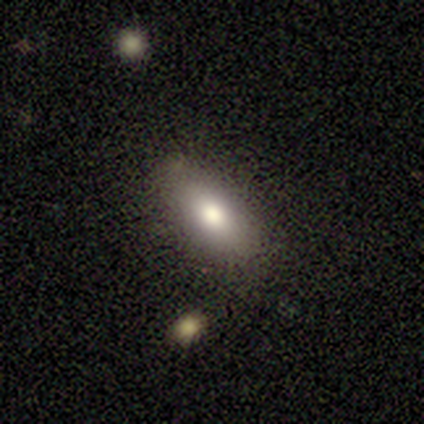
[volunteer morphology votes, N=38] Overall: smooth (79%). How rounded: in between (87%). Merging: none (94%).